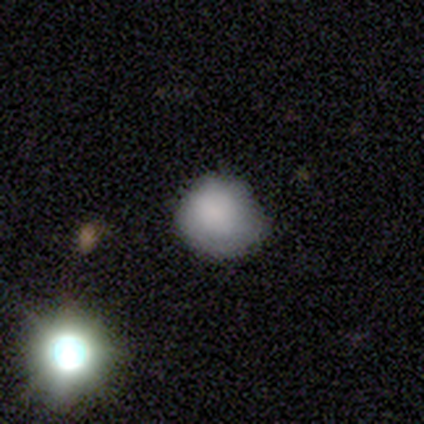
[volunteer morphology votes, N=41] smooth_or_featured: smooth (p=0.76) [alt: featured or disk p=0.20]
how_rounded: round (p=0.77) [alt: in between p=0.23]
merging: none (p=0.59) [alt: minor disturbance p=0.33]